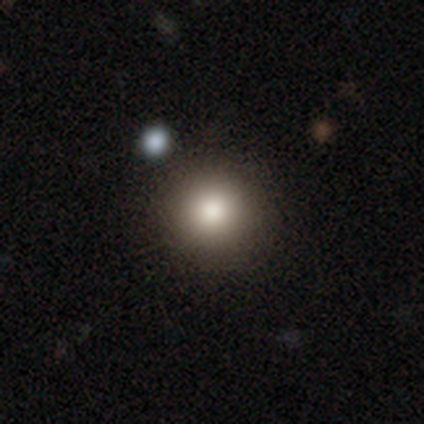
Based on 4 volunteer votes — Morphology: type=smooth (100%); roundness=round (100%); merging=none (100%).